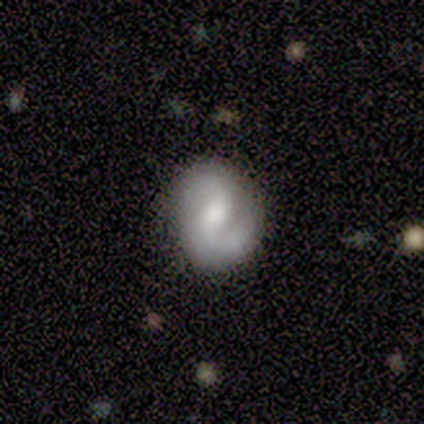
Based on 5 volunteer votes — featured or disk 100%, smooth 0%, star or artifact 0%. Down the decision tree: edge-on disk — no (100%); bar — weak (40%, tied with no); spiral arms — yes (100%); spiral arm count — 2 (100%); spiral winding — medium (40%, tied with loose); bulge size — moderate (40%, tied with small); merging — none (100%).